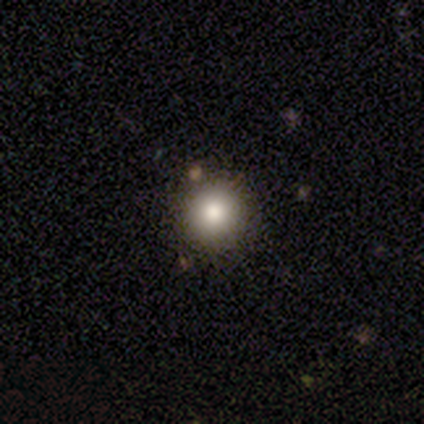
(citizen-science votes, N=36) Smooth or featured: smooth — 75% (star or artifact — 17%)
How rounded: round — 93% (in between — 7%)
Merging: none — 97% (minor disturbance — 3%)